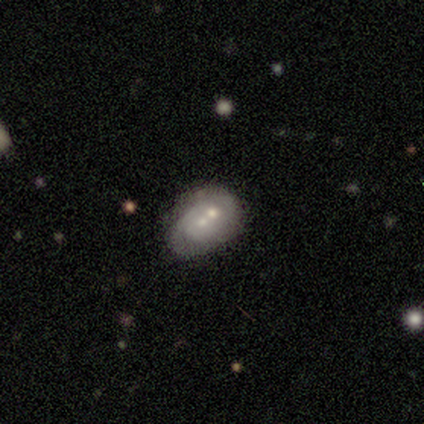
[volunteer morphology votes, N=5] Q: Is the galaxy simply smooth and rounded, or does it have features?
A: featured or disk — 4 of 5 (80%).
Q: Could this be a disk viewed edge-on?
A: no — 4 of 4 (100%).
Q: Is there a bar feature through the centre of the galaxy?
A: no — 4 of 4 (100%).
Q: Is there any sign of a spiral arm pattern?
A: yes — 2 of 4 (50%, tied with no).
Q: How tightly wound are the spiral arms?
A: tight — 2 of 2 (100%).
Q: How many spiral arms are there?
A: can't tell — 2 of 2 (100%).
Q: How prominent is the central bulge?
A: moderate — 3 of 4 (75%).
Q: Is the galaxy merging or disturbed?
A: merger — 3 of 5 (60%).